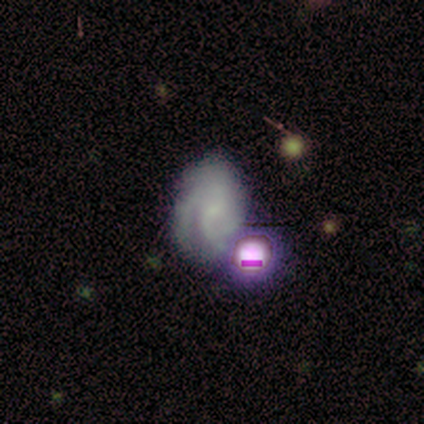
featured or disk 73%, smooth 18%, star or artifact 9%. Down the decision tree: edge-on disk — no (100%); bar — no (75%); spiral arms — yes (75%); spiral arm count — 2 (67%); spiral winding — medium (83%); bulge size — none (62%); merging — none (50%).